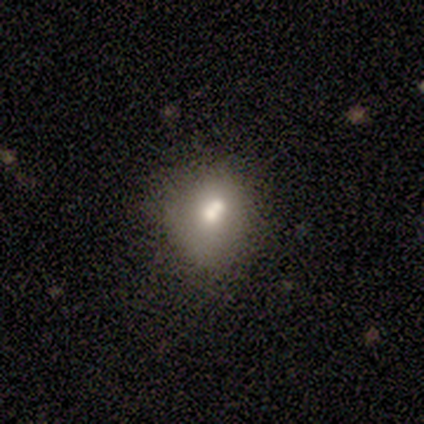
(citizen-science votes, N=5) Smooth or featured?
  - smooth: 40% * (tied)
  - featured or disk: 40% * (tied)
  - star or artifact: 20%
How rounded?
  - round: 50% * (tied)
  - in between: 50% * (tied)
  - cigar-shaped: 0%
Merging?
  - none: 75% *
  - minor disturbance: 25%
  - major disturbance: 0%
  - merger: 0%